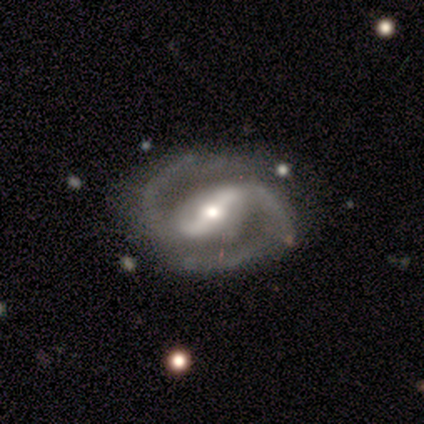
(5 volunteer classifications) Q: Smooth or featured?
A: featured or disk (80%); runner-up: smooth (20%)
Q: Edge-on disk?
A: no (75%); runner-up: yes (25%)
Q: Bar?
A: strong (67%); runner-up: weak (33%)
Q: Spiral arms?
A: yes (100%)
Q: Spiral winding?
A: tight (67%); runner-up: loose (33%)
Q: Spiral arm count?
A: 2 (100%)
Q: Bulge size?
A: moderate (67%); runner-up: small (33%)
Q: Merging?
A: none (80%); runner-up: merger (20%)